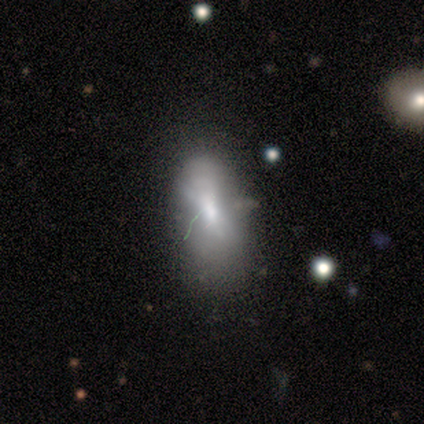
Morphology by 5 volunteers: This is likely a smooth galaxy (60%). How rounded: clearly in between (100%). Merging: likely none (75%).